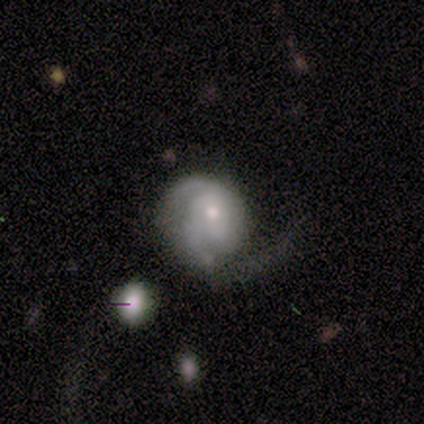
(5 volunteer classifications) smooth_or_featured: featured or disk (p=1.00)
disk_edge_on: no (p=1.00)
bar: no (p=1.00)
has_spiral_arms: yes (p=0.80) [alt: no p=0.20]
spiral_winding: medium (p=0.50) [tied with: loose p=0.50]
spiral_arm_count: can't tell (p=0.50) [alt: 1 p=0.25]
bulge_size: small (p=0.60) [alt: moderate p=0.40]
merging: major disturbance (p=0.60) [alt: none p=0.40]